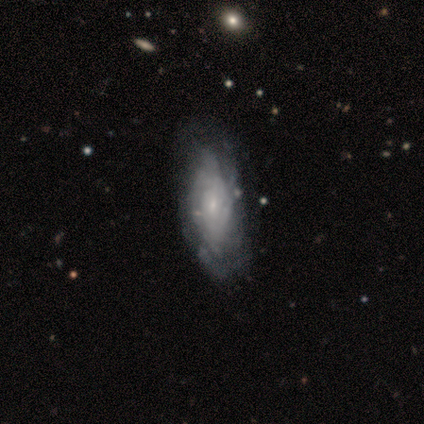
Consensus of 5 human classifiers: A featured or disk galaxy (80%) with no bar (100%), no spiral arms (75%) and a small central bulge (75%). Merging: none (60%).